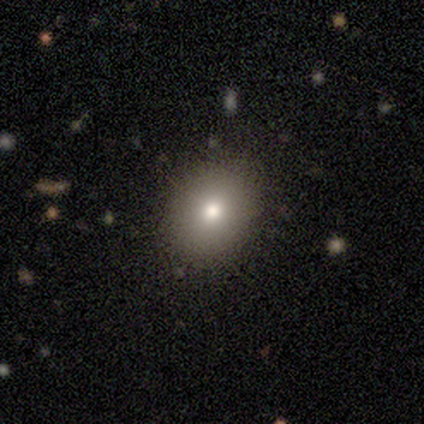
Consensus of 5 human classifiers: smooth 80%, star or artifact 20%, featured or disk 0%. Down the decision tree: how rounded — in between (75%); merging — none (75%).